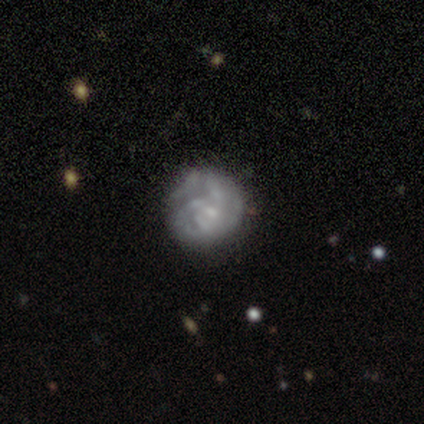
This is likely a featured or disk galaxy (63%). It is clearly not viewed edge-on (100%). Bar: likely no (75%). Spiral arm pattern: possibly yes (54%). Spiral arm count: possibly 3 (54%). Spiral winding: possibly tight (46%). Central bulge: possibly small (46%). Merging: likely none (71%).